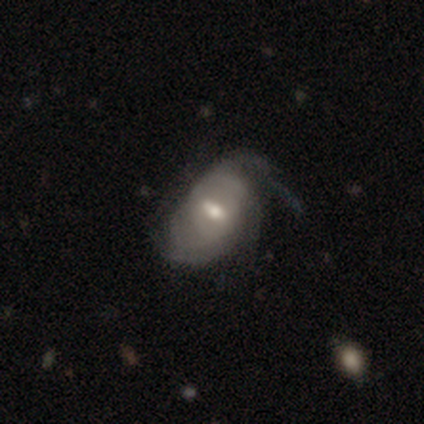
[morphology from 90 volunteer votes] smooth-or-featured: featured or disk: 61% | smooth: 31% | star or artifact: 8%
  disk-edge-on: no: 95% | yes: 5%
    bar: weak: 54% | strong: 25% | no: 21%
    has-spiral-arms: yes: 85% | no: 15%
      spiral-winding: tight: 43% | medium: 32% | loose: 25%
      spiral-arm-count: can't tell: 48% | 2: 30% | 4: 9% | 1: 7% | 3: 7% | more than 4: 0%
    bulge-size: moderate: 69% | small: 23% | large: 8% | dominant: 0% | none: 0%
  merging: minor disturbance: 37% | none: 34% | major disturbance: 28% | merger: 1%